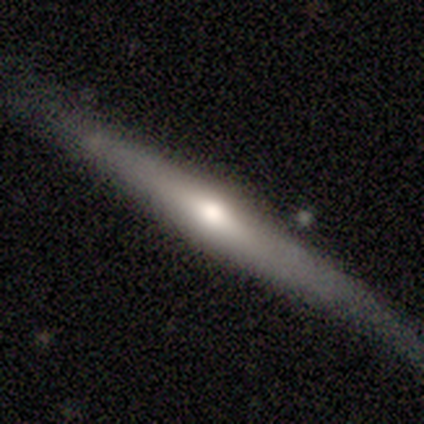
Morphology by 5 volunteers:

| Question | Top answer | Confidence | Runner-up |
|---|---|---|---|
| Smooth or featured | smooth | 80% | featured or disk (20%) |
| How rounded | cigar-shaped | 75% | round (25%) |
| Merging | minor disturbance | 60% | major disturbance (40%) |